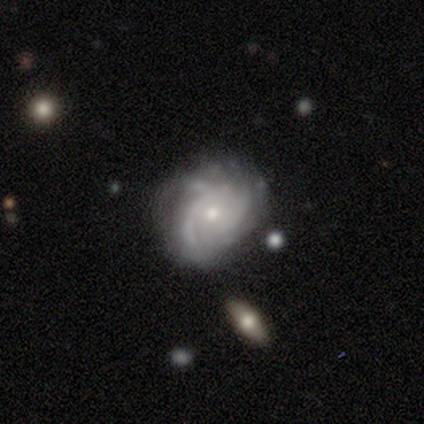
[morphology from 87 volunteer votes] This appears to be a featured or disk galaxy (87%) with no bar (84%), tight (61%) spiral arms (96%) and a small central bulge (71%). Merging: none (54%).